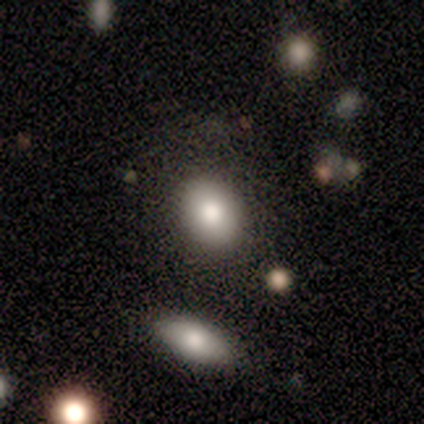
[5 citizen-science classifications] smooth_or_featured: smooth (p=1.00)
how_rounded: in between (p=0.60) [alt: round p=0.40]
merging: none (p=0.80) [alt: minor disturbance p=0.20]